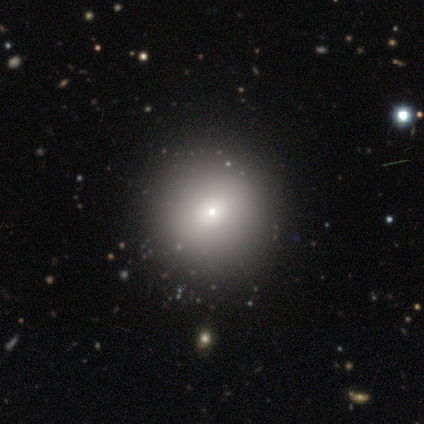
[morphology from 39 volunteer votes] This is likely a smooth galaxy (62%). How rounded: clearly round (92%). Merging: clearly none (90%).